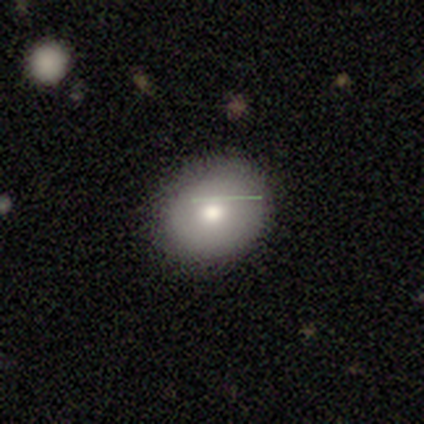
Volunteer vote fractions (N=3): Smooth or featured? smooth (67%)
How rounded? round (50%, tied with in between)
Merging? none (100%)